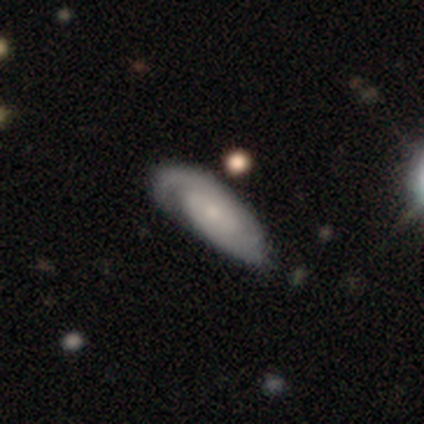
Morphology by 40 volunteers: Volunteers were most divided on "spiral arm count": 2: 52%, can't tell: 33%, 1: 15%, 3: 0%, 4: 0%, more than 4: 0%. Remaining: edge-on disk — no (94%); spiral arms — yes (90%); bar — no (90%); smooth or featured — featured or disk (80%); bulge size — small (63%); spiral winding — tight (63%); merging — none (44%).